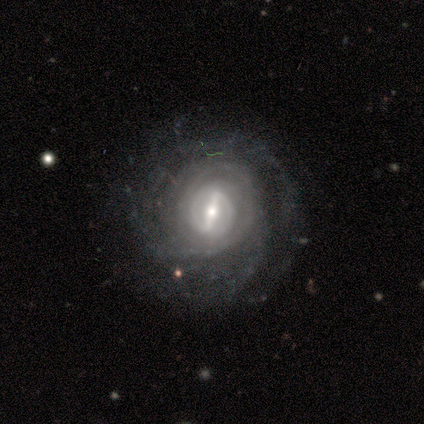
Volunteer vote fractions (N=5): This appears to be a featured or disk galaxy (80%) with a strong bar (50%), 2 (67%) tight (100%) spiral arms (75%) and a small central bulge (75%). Merging: none (75%).